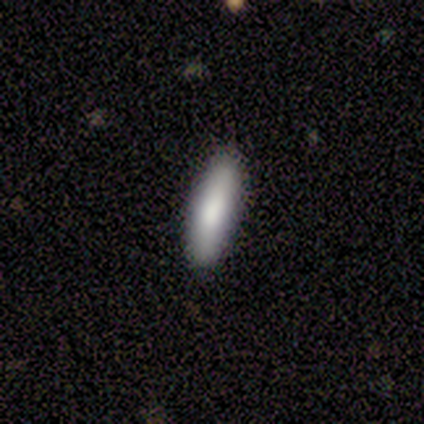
This is likely a smooth galaxy (60%). How rounded: clearly cigar-shaped (100%). Merging: clearly none (80%).